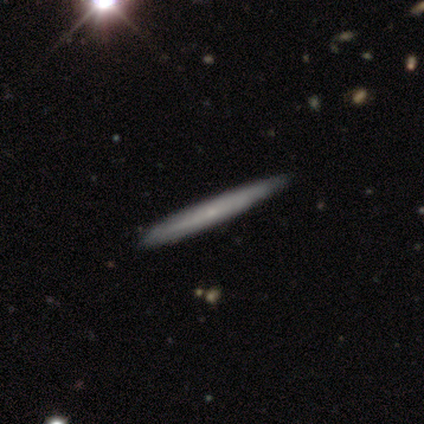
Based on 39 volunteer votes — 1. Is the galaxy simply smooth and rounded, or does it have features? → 72% featured or disk, 28% smooth, 0% star or artifact.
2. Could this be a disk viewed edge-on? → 100% yes, 0% no.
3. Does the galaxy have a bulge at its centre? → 64% none, 32% rounded, 4% boxy.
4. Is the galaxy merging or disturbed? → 82% none, 8% minor disturbance, 3% merger, 0% major disturbance.